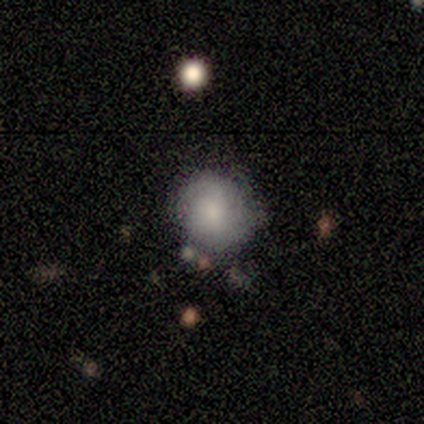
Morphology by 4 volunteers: A smooth galaxy with no disk features (50%) that is round (100%).

Vote fractions:
- Smooth or featured? smooth: 50% / featured or disk: 25% / star or artifact: 25%
- How rounded? round: 100% / in between: 0% / cigar-shaped: 0%
- Merging? minor disturbance: 67% / none: 33% / major disturbance: 0% / merger: 0%